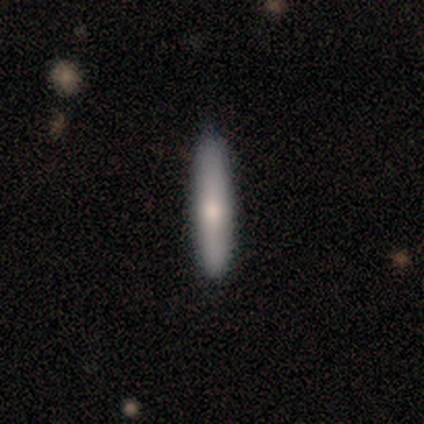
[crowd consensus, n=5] A featured or disk galaxy (60%) viewed edge-on (67%) with no central bulge (50%, tied with rounded). Merging: none (75%).